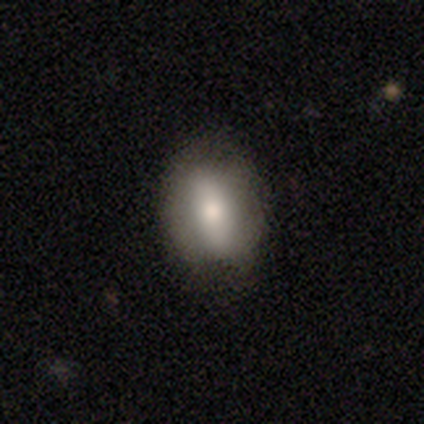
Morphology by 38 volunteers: Smooth or featured? 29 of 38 (76%) said smooth. How rounded? 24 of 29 (83%) said in between. Merging? 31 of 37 (84%) said none.